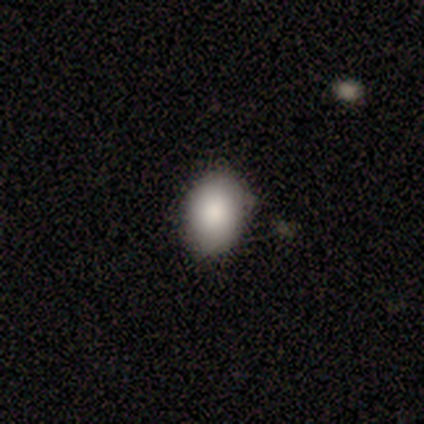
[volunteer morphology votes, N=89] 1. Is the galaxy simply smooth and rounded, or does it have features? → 91% smooth, 6% featured or disk, 3% star or artifact.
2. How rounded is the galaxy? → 78% in between, 20% round, 2% cigar-shaped.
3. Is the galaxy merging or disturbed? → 87% none, 12% minor disturbance, 1% major disturbance, 0% merger.